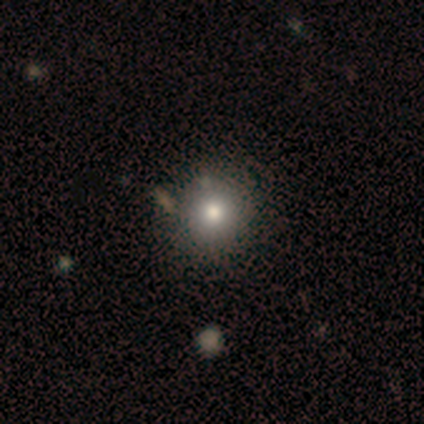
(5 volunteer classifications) Overall: smooth (60%; featured or disk 40%). How rounded: round (100%). Merging: none (80%).